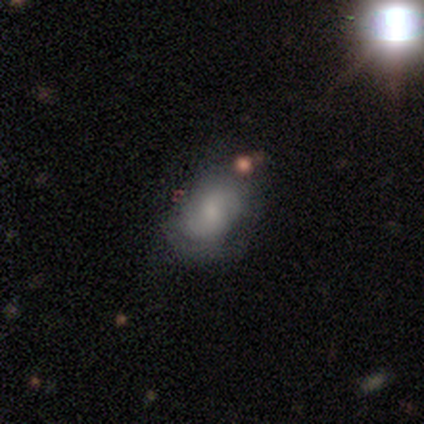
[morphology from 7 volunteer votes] Smooth or featured: featured or disk — 71% (smooth — 29%)
Edge-on disk: no — 100%
Bar: no — 60% (weak — 40%)
Spiral arms: no — 60% (yes — 40%)
Bulge size: small — 40% (tied with none — 40%)
Merging: none — 71% (minor disturbance — 29%)